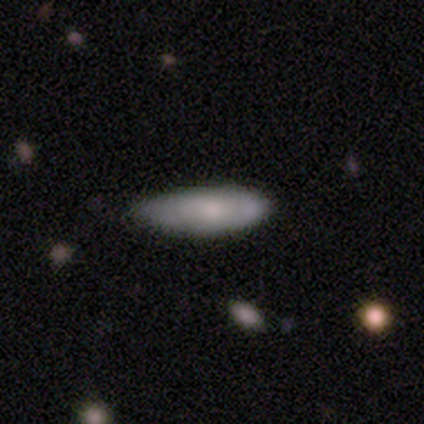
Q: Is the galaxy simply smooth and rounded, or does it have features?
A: smooth — 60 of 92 (65%).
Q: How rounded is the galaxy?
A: in between — 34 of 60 (57%).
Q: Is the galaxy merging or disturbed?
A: none — 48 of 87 (55%).